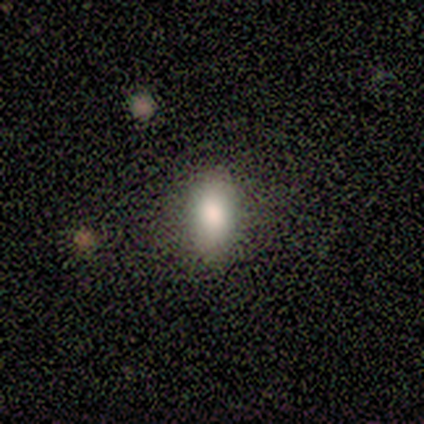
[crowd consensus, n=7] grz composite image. It shows a smooth galaxy with no disk features (86%) that is in between round and cigar-shaped (83%). Merging: none (100%).